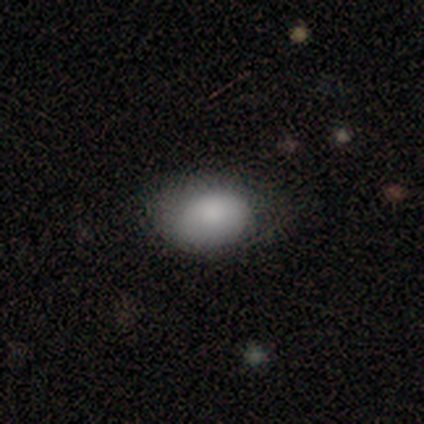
Smooth or featured: smooth — 100%
How rounded: in between — 88% (round — 12%)
Merging: none — 62% (minor disturbance — 38%)